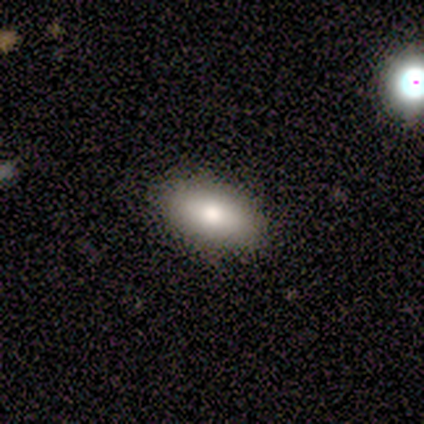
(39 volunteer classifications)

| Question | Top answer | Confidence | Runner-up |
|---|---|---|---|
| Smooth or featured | smooth | 77% | featured or disk (21%) |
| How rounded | in between | 100% | — |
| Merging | none | 92% | minor disturbance (5%) |